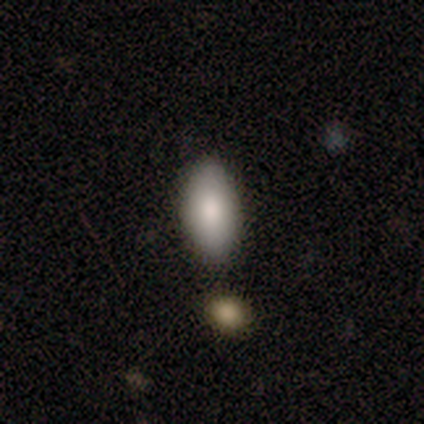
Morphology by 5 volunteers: Volunteers were most divided on "how rounded": in between: 75%, cigar-shaped: 25%, round: 0%. More confident: smooth or featured — smooth (80%); merging — none (75%).